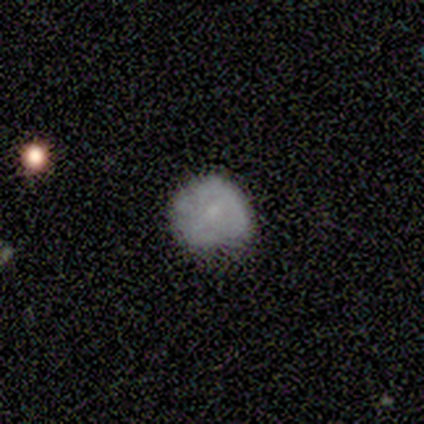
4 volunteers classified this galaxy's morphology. Volunteers were most divided on "how rounded": round: 67%, in between: 33%, cigar-shaped: 0%. More confident: smooth or featured — smooth (75%); merging — none (67%).